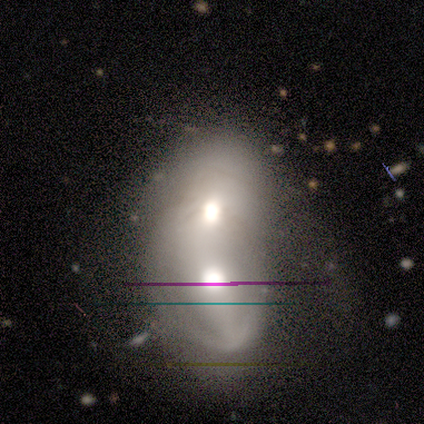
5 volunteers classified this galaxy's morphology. A featured or disk galaxy (100%) with no bar (100%), no spiral arms (100%) and a moderate central bulge (80%).

Vote fractions:
- Smooth or featured? featured or disk: 100% / smooth: 0% / star or artifact: 0%
- Edge-on disk? no: 100% / yes: 0%
- Bar? no: 100% / strong: 0% / weak: 0%
- Spiral arms? no: 100% / yes: 0%
- Bulge size? moderate: 80% / large: 20% / dominant: 0% / small: 0% / none: 0%
- Merging? merger: 80% / major disturbance: 20% / none: 0% / minor disturbance: 0%